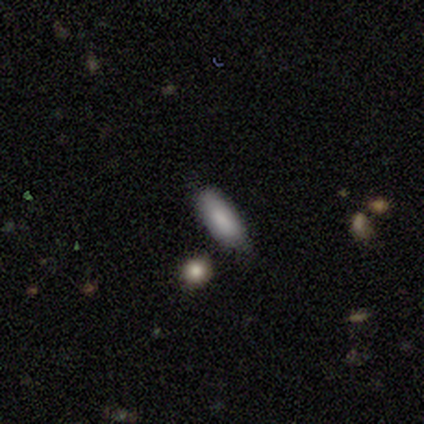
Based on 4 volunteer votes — Smooth or featured? 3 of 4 (75%) said smooth. How rounded? 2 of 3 (67%) said in between. Merging? 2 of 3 (67%) said none.